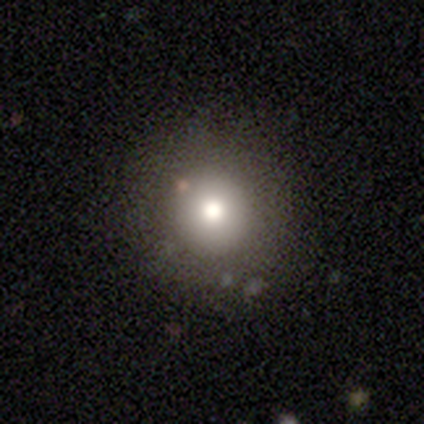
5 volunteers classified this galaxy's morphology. This is marginally a smooth galaxy (40%, tied with featured or disk). How rounded: clearly round (100%). Merging: clearly none (100%).